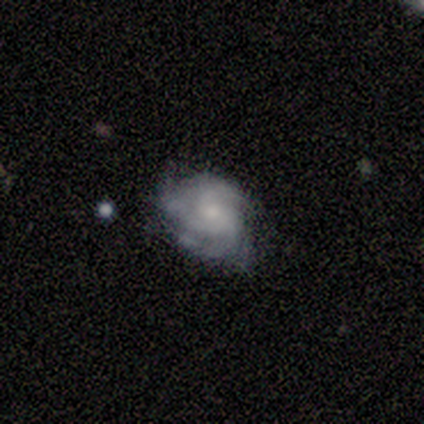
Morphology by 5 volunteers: A featured or disk galaxy (100%) with no bar (80%), 3 (100%) medium (60%) spiral arms (100%) and a small central bulge (60%).

Vote fractions:
- Smooth or featured? featured or disk: 100% / smooth: 0% / star or artifact: 0%
- Edge-on disk? no: 100% / yes: 0%
- Bar? no: 80% / weak: 20% / strong: 0%
- Spiral arms? yes: 100% / no: 0%
- Spiral winding? medium: 60% / tight: 40% / loose: 0%
- Spiral arm count? 3: 100% / 1: 0% / 2: 0% / 4: 0% / more than 4: 0% / can't tell: 0%
- Bulge size? small: 60% / moderate: 40% / dominant: 0% / large: 0% / none: 0%
- Merging? none: 60% / minor disturbance: 40% / major disturbance: 0% / merger: 0%